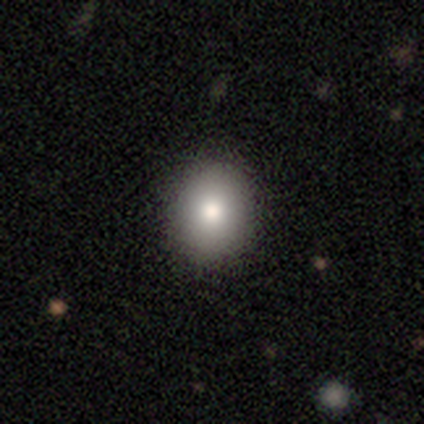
Volunteers were most divided on "how rounded": round: 55%, in between: 42%, cigar-shaped: 3%. More confident: merging — none (92%); smooth or featured — smooth (79%).